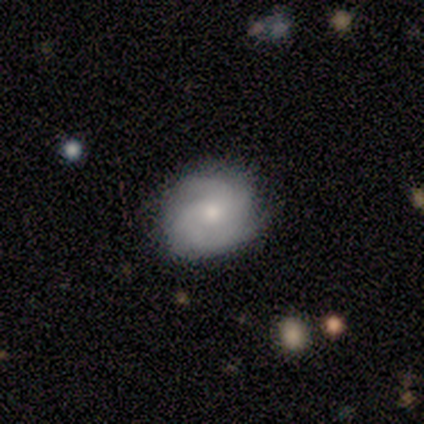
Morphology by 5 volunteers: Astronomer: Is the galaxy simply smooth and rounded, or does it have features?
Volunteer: featured or disk — 100%.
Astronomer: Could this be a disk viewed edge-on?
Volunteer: no — 100%.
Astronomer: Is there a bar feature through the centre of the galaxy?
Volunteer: no — 80%.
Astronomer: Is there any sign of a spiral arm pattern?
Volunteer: yes — 100%.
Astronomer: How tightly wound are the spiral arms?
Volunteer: tight — 60%.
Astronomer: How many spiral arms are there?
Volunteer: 2 — 80%.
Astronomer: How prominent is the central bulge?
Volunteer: moderate — 80%.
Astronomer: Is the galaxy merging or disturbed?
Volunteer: none — 100%.